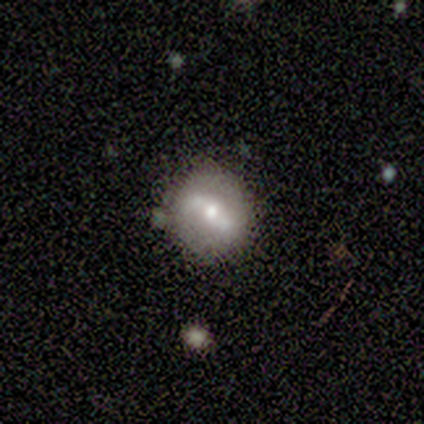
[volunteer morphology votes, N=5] Smooth or featured? featured or disk (60%)
Edge-on disk? no (100%)
Bar? strong (67%)
Spiral arms? yes (100%)
Spiral winding? loose (100%)
Spiral arm count? 2 (100%)
Bulge size? moderate (67%)
Merging? none (40%)